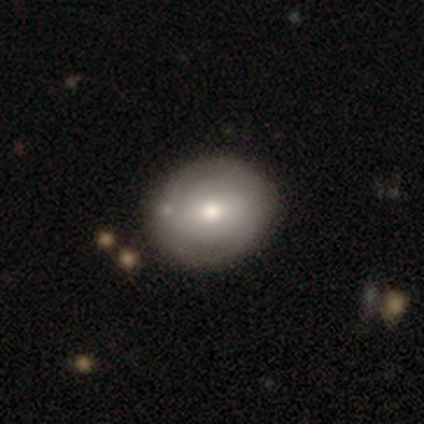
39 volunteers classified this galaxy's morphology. This is likely a smooth galaxy (62%). How rounded: likely round (62%). Merging: possibly none (58%).